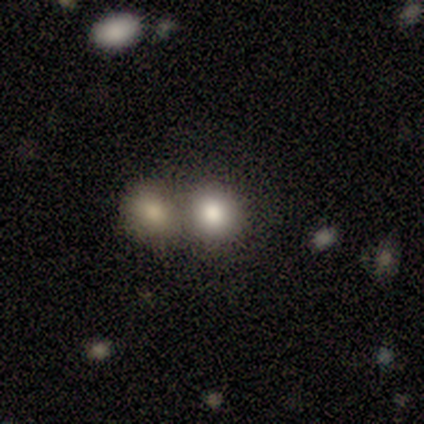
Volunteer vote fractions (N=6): Smooth or featured? 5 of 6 (83%) said smooth. How rounded? 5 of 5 (100%) said round. Merging? 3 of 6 (50%, tied with merger) said none.